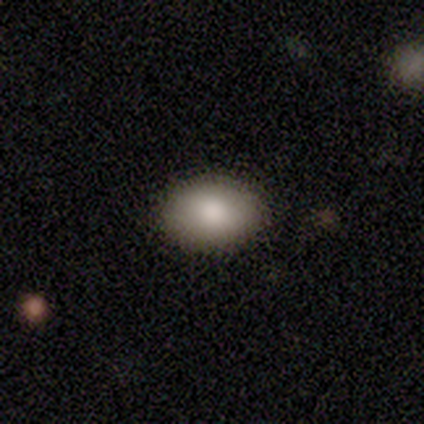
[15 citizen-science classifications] smooth_or_featured: smooth (p=0.80) [alt: star or artifact p=0.13]
how_rounded: in between (p=0.83) [alt: round p=0.17]
merging: none (p=0.85) [alt: minor disturbance p=0.15]